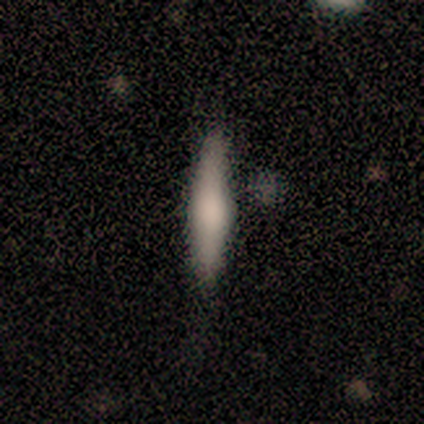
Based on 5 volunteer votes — This appears to be a smooth galaxy with no disk features (80%) that is cigar-shaped (75%). Merging: none (100%).